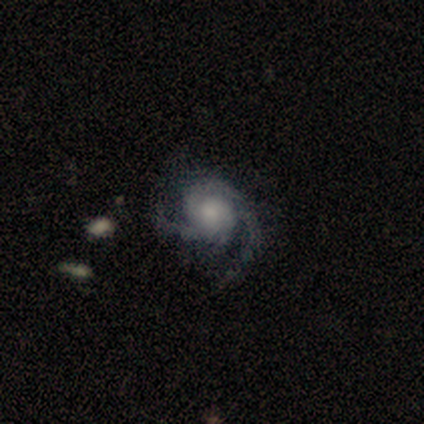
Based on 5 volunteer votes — Overall: featured or disk (100%). Edge-on disk: no (100%). Bar: no (80%). Spiral arms: yes (100%). Spiral arm count: 2 (60%; 3 20%). Spiral winding: loose (60%; tight 20%). Bulge size: small (60%; large 20%). Merging: none (40%, tied with minor disturbance).